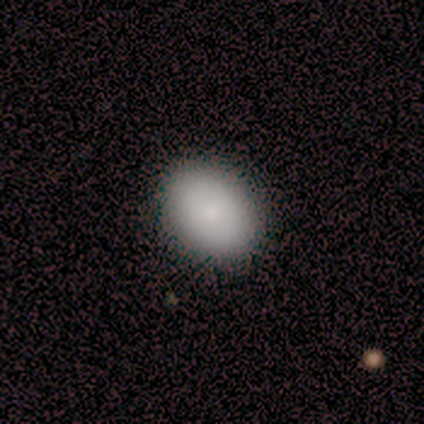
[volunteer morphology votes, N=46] Smooth or featured? smooth (89%)
How rounded? in between (76%)
Merging? none (93%)